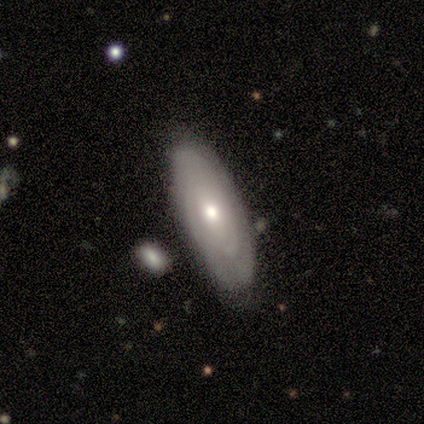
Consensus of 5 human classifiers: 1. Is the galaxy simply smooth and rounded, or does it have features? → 60% smooth, 40% featured or disk, 0% star or artifact.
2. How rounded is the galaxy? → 67% in between, 33% cigar-shaped, 0% round.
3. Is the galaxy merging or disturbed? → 100% none, 0% minor disturbance, 0% major disturbance, 0% merger.